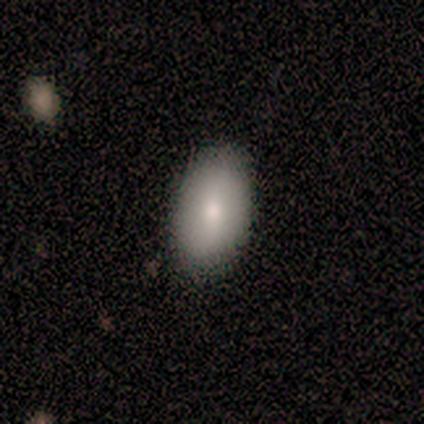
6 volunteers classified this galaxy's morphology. Volunteers were most divided on "how rounded": in between: 80%, round: 20%, cigar-shaped: 0%. More confident: merging — none (100%); smooth or featured — smooth (83%).